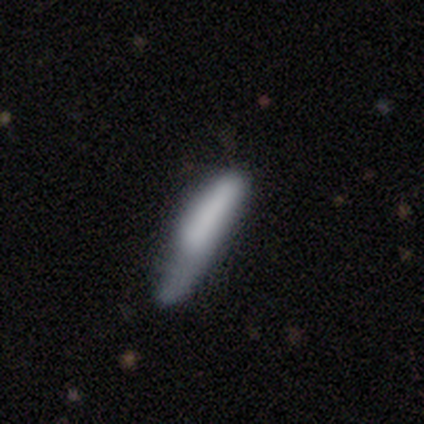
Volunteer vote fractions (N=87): Smooth or featured?
  - smooth: 75% *
  - featured or disk: 17%
  - star or artifact: 8%
How rounded?
  - cigar-shaped: 91% *
  - in between: 9%
  - round: 0%
Merging?
  - minor disturbance: 36% *
  - none: 28%
  - major disturbance: 26%
  - merger: 10%